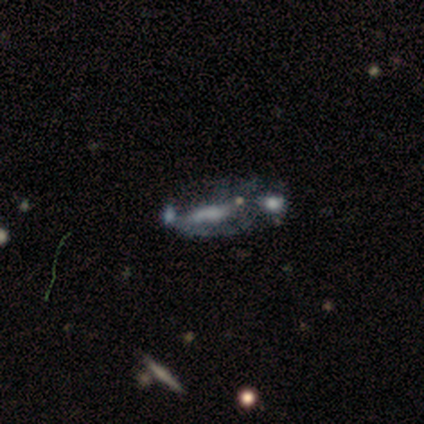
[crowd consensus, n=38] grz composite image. It shows a featured or disk galaxy (68%) with no bar (77%), no spiral arms (82%) and no central bulge (64%). Merging: merger (44%).